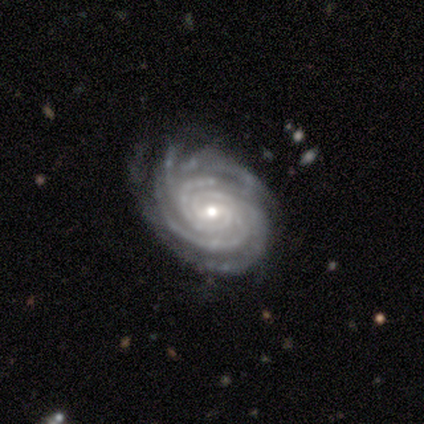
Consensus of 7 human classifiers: This is clearly a featured or disk galaxy (100%). It is clearly not viewed edge-on (100%). Bar: possibly no (57%). Spiral arm pattern: clearly yes (100%). Spiral arm count: possibly more than 4 (57%). Spiral winding: clearly tight (100%). Central bulge: likely small (71%). Merging: possibly none (57%).